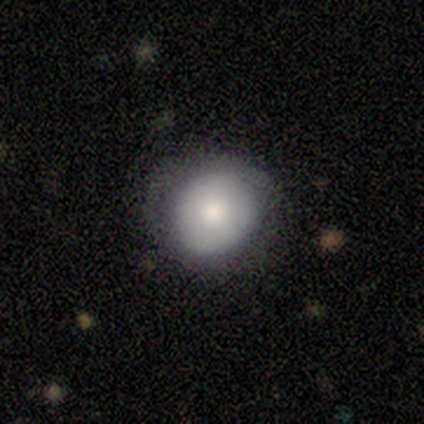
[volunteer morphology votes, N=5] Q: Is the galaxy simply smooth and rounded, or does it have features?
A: smooth — 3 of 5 (60%).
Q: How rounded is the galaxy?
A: round — 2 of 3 (67%).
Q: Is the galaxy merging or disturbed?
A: none — 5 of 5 (100%).